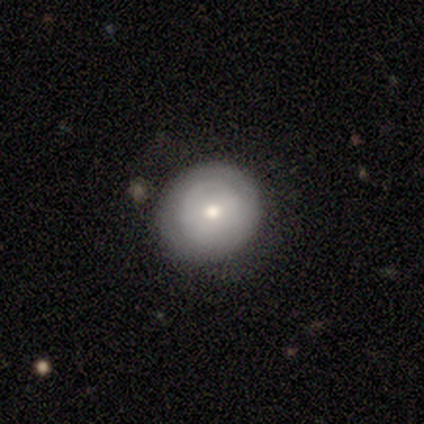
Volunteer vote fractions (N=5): Morphology: type=smooth (100%); roundness=round (80%); merging=none (60%).